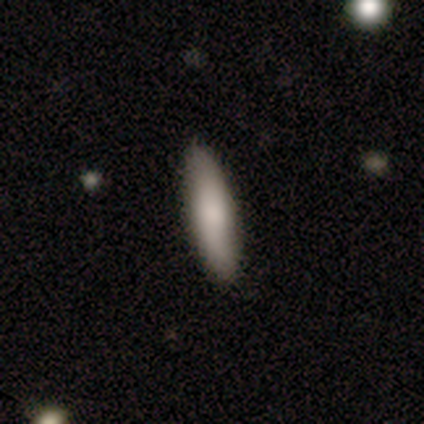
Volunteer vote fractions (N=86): Smooth or featured? smooth (80%)
How rounded? cigar-shaped (67%)
Merging? none (93%)